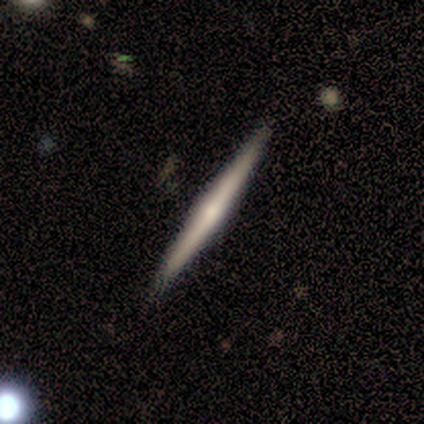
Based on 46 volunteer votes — featured or disk 67%, smooth 28%, star or artifact 4%. Down the decision tree: edge-on disk — yes (97%); edge-on bulge — rounded (77%); merging — none (84%).